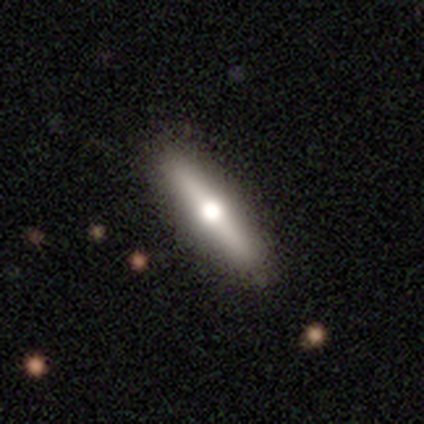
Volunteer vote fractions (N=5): smooth_or_featured: featured or disk (p=0.60) [alt: smooth p=0.40]
disk_edge_on: yes (p=0.67) [alt: no p=0.33]
edge_on_bulge: rounded (p=1.00)
merging: none (p=1.00)